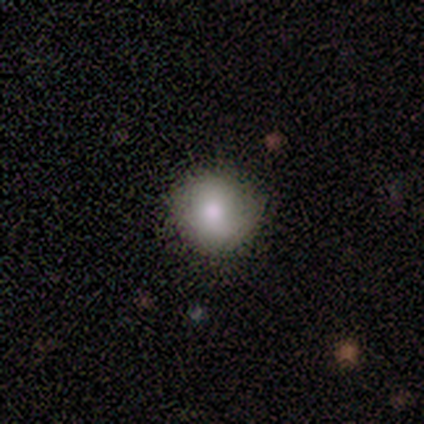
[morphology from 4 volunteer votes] smooth_or_featured: smooth (p=0.75) [alt: featured or disk p=0.25]
how_rounded: round (p=1.00)
merging: none (p=0.50) [tied with: minor disturbance p=0.50]